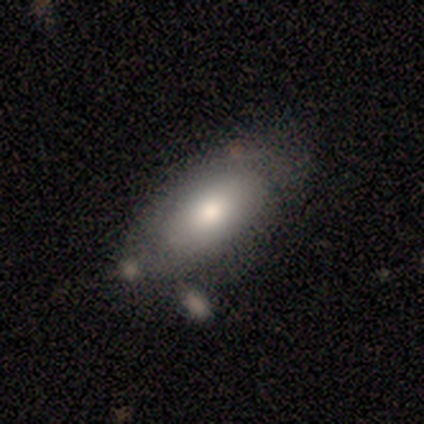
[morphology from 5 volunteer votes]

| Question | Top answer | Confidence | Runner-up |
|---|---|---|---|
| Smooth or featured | smooth | 100% | — |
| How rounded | in between | 100% | — |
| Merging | none | 60% | minor disturbance (40%) |